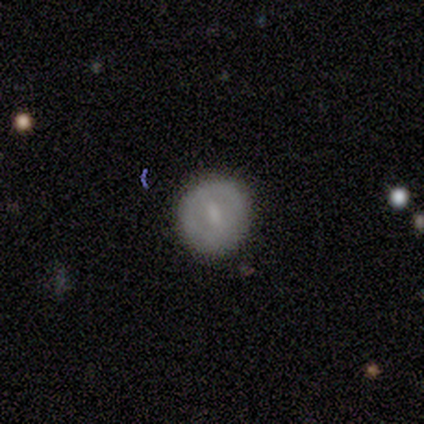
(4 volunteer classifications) Smooth or featured: smooth — 50% (tied with featured or disk — 50%)
How rounded: round — 100%
Merging: none — 100%